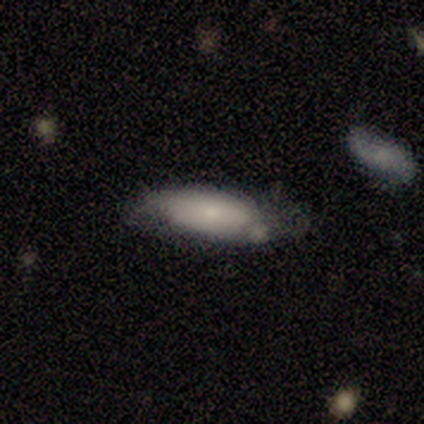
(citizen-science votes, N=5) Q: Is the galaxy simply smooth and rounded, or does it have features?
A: featured or disk — 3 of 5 (60%).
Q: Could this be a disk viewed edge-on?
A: yes — 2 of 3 (67%).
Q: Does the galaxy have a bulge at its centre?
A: none — 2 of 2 (100%).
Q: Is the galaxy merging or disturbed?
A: none — 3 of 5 (60%).